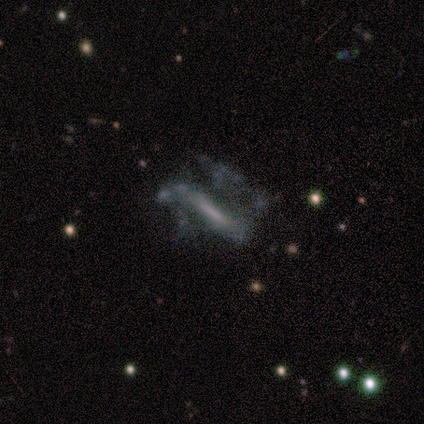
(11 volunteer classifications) Morphology: type=featured or disk (73%); edge-on=no (62%); bar=no (60%); spiral arms=no (80%); bulge=none (80%); merging=major disturbance (55%).